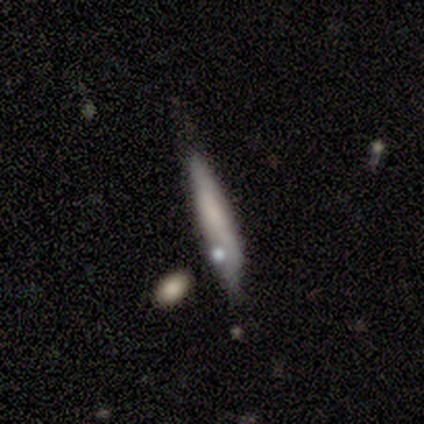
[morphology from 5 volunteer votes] smooth_or_featured: smooth (p=0.80) [alt: star or artifact p=0.20]
how_rounded: cigar-shaped (p=1.00)
merging: none (p=1.00)